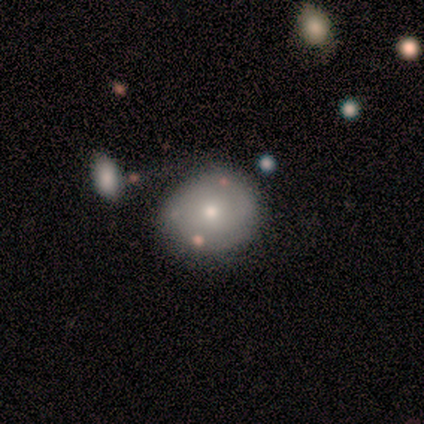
Smooth or featured: smooth — 50% (featured or disk — 42%)
How rounded: round — 89% (in between — 5%)
Merging: none — 57% (minor disturbance — 26%)